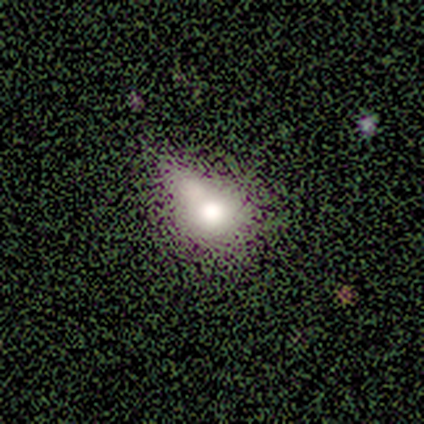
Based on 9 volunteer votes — Smooth or featured?
  - smooth: 44% * (tied)
  - featured or disk: 44% * (tied)
  - star or artifact: 11%
How rounded?
  - round: 50% * (tied)
  - in between: 50% * (tied)
  - cigar-shaped: 0%
Merging?
  - major disturbance: 50% *
  - minor disturbance: 25%
  - none: 12%
  - merger: 12%